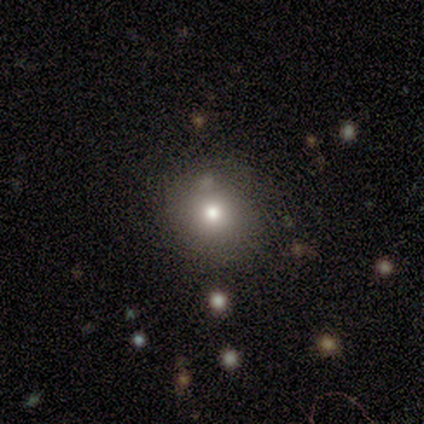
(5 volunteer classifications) A smooth galaxy with no disk features (60%) that is round (67%). Merging: none (75%).